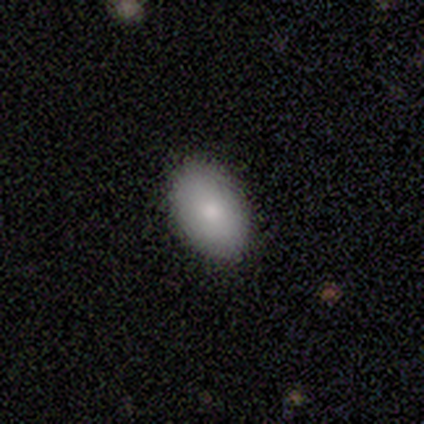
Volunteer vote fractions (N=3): Overall: smooth (100%). How rounded: in between (100%). Merging: none (100%).